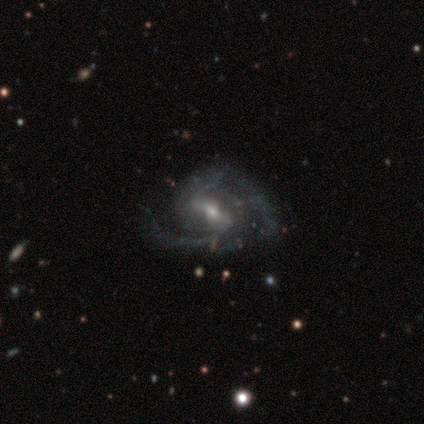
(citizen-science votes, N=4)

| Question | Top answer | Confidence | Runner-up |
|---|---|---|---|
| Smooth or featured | featured or disk | 100% | — |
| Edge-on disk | no | 100% | — |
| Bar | strong | 50% | tied: no (50%) |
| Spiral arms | yes | 75% | no (25%) |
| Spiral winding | loose | 67% | medium (33%) |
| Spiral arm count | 2 | 100% | — |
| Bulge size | moderate | 100% | — |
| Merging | none | 50% | minor disturbance (25%) |